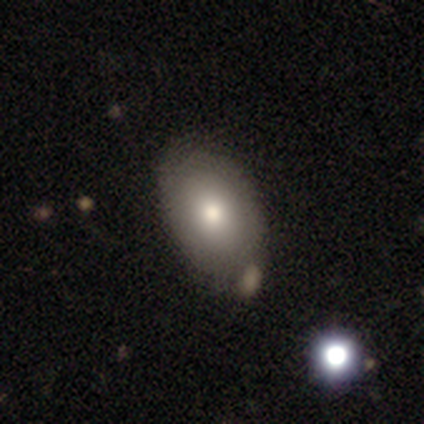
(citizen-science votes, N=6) Smooth or featured? 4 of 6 (67%) said smooth. How rounded? 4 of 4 (100%) said in between. Merging? 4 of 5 (80%) said none.